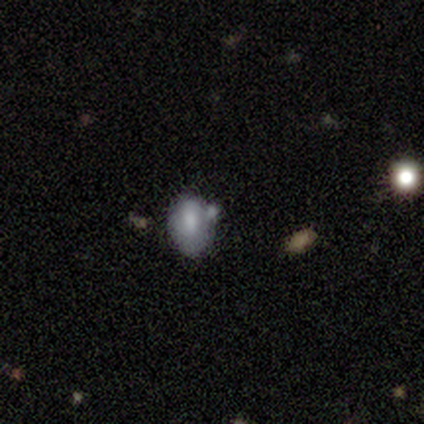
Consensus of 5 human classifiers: This appears to be a smooth galaxy with no disk features (60%) that is in between round and cigar-shaped (100%). Merging: minor disturbance (50%).